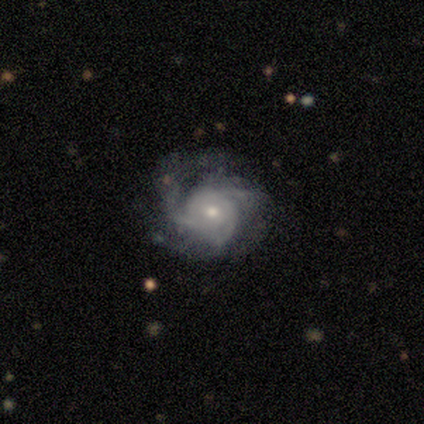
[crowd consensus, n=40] A featured or disk galaxy (90%) with no bar (86%), 3 (56%) tight (56%) spiral arms (94%) and a moderate central bulge (56%).

Vote fractions:
- Smooth or featured? featured or disk: 90% / smooth: 8% / star or artifact: 2%
- Edge-on disk? no: 100% / yes: 0%
- Bar? no: 86% / weak: 11% / strong: 3%
- Spiral arms? yes: 94% / no: 6%
- Spiral winding? tight: 56% / medium: 35% / loose: 9%
- Spiral arm count? 3: 56% / can't tell: 32% / 2: 9% / more than 4: 3% / 1: 0% / 4: 0%
- Bulge size? moderate: 56% / small: 39% / large: 6% / dominant: 0% / none: 0%
- Merging? none: 62% / minor disturbance: 23% / major disturbance: 15% / merger: 0%